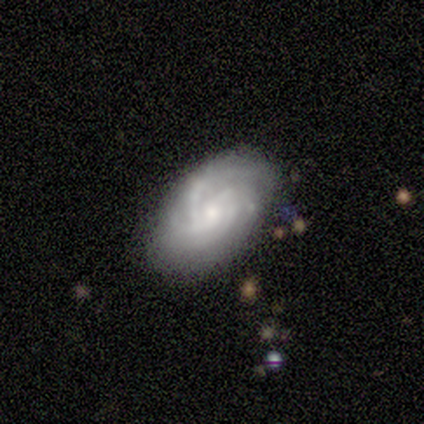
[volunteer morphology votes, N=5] Smooth or featured: featured or disk — 80% (smooth — 20%)
Edge-on disk: no — 75% (yes — 25%)
Bar: no — 100%
Spiral arms: yes — 67% (no — 33%)
Spiral winding: tight — 50% (tied with medium — 50%)
Spiral arm count: 3 — 50% (tied with can't tell — 50%)
Bulge size: small — 67% (moderate — 33%)
Merging: none — 100%